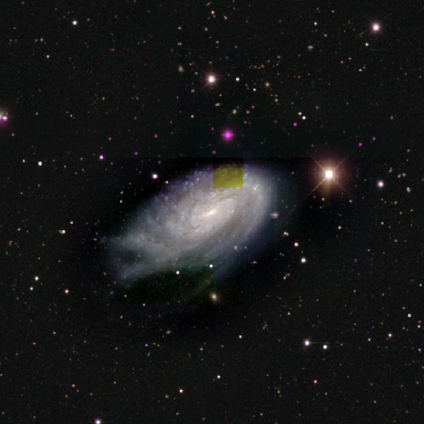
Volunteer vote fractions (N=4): This appears to be a featured or disk galaxy (100%) with a strong bar (33%, tied with weak and no), tight (67%) spiral arms (100%) and a small central bulge (100%). Merging: minor disturbance (75%).